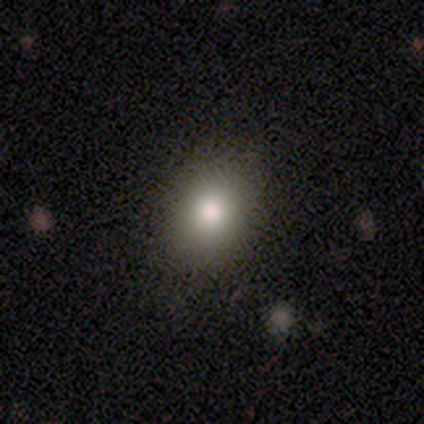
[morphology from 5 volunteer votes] type=smooth (100%); roundness=round (80%); merging=none (100%).